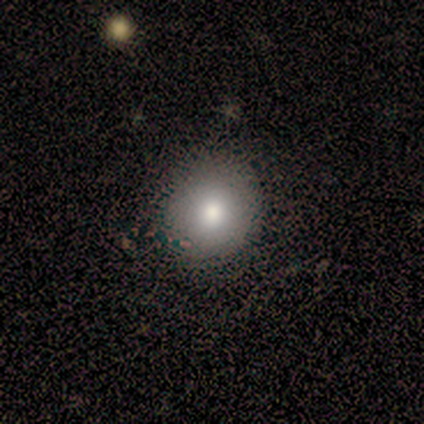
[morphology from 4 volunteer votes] This is clearly a smooth galaxy (100%). How rounded: likely round (75%). Merging: likely none (75%).